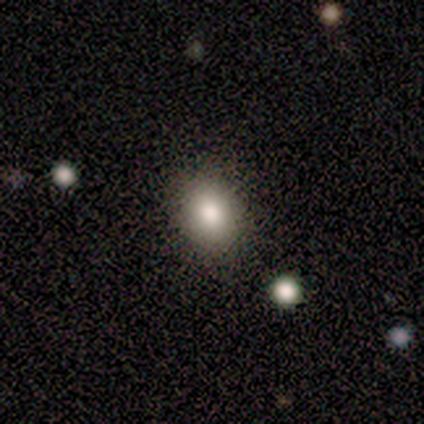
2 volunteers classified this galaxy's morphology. This appears to be a smooth galaxy with no disk features (100%) that is round (50%, tied with in between). Merging: none (50%, tied with minor disturbance).